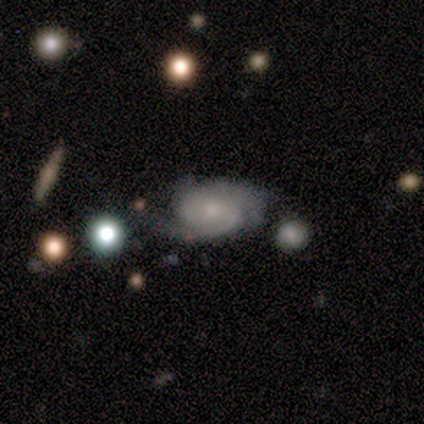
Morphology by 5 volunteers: Overall: featured or disk (100%). Edge-on disk: no (100%). Bar: no (100%). Spiral arms: yes (100%). Spiral arm count: 2 (80%). Spiral winding: medium (60%; tight 40%). Bulge size: small (40%, tied with none). Merging: none (40%, tied with minor disturbance).